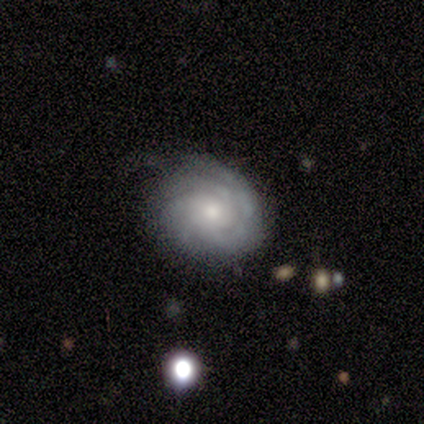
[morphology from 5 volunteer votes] A featured or disk galaxy (100%) with no bar (60%), 3 (60%) tight (60%) spiral arms (100%) and a moderate central bulge (40%, tied with small). Merging: none (40%, tied with minor disturbance).